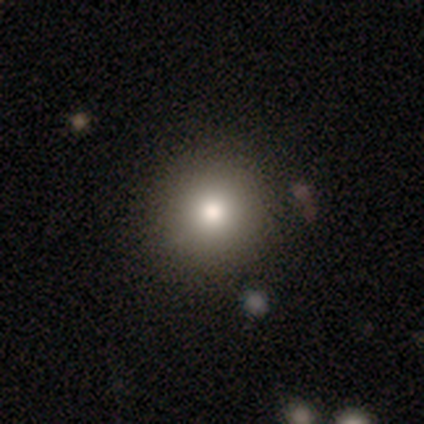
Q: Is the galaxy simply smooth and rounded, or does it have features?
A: smooth — 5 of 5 (100%).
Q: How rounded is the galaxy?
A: round — 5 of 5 (100%).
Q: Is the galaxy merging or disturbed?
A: none — 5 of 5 (100%).